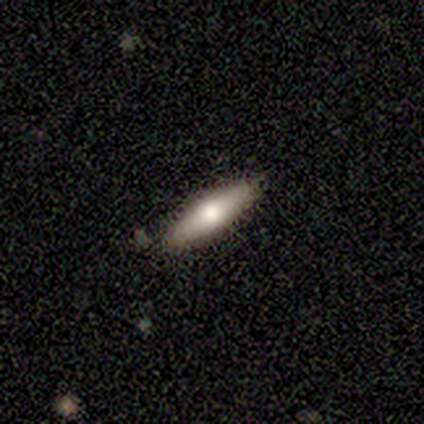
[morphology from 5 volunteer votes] Smooth or featured: smooth — 80% (featured or disk — 20%)
How rounded: in between — 75% (cigar-shaped — 25%)
Merging: none — 100%